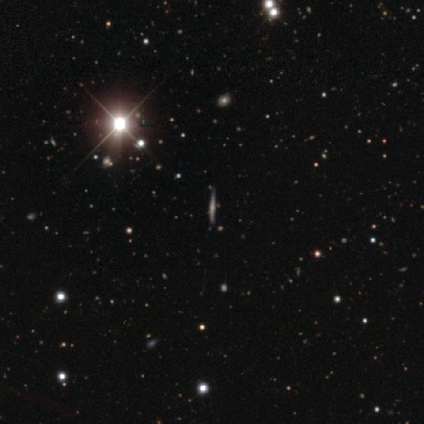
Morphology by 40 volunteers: Smooth or featured: featured or disk — 50% (star or artifact — 42%)
Edge-on disk: yes — 95% (no — 5%)
Edge-on bulge: none — 68% (rounded — 26%)
Merging: none — 83% (minor disturbance — 9%)